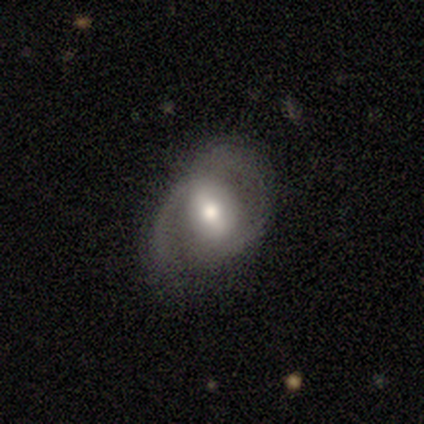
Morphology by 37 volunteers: type=featured or disk (62%); edge-on=no (96%); bar=weak (55%); spiral arms=yes (64%); winding=medium (43%, tied with loose); arm count=2 (57%); bulge=moderate (73%); merging=none (56%).